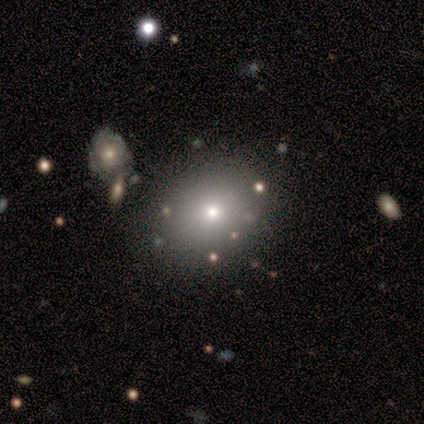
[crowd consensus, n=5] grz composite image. It shows a smooth galaxy with no disk features (100%) that is in between round and cigar-shaped (60%). Merging: none (100%).